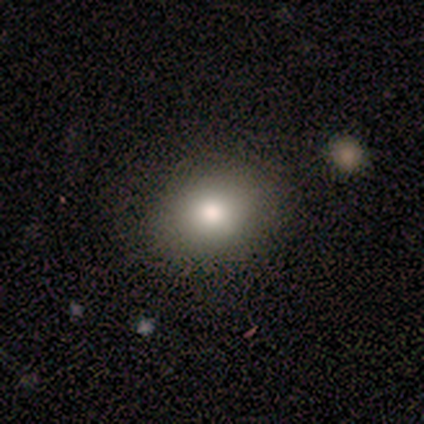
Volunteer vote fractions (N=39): Q: Smooth or featured?
A: smooth (87%); runner-up: star or artifact (8%)
Q: How rounded?
A: in between (53%); runner-up: round (47%)
Q: Merging?
A: none (89%); runner-up: minor disturbance (8%)